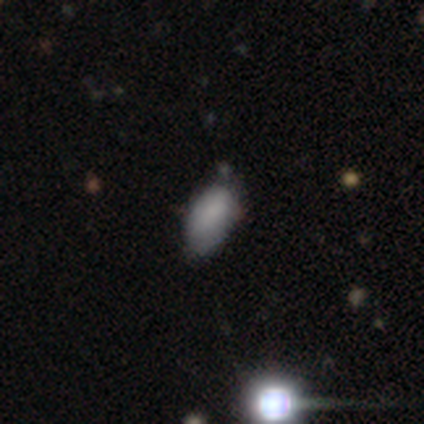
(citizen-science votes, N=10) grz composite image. It shows a smooth galaxy with no disk features (90%) that is in between round and cigar-shaped (78%). Merging: none (44%, tied with minor disturbance).